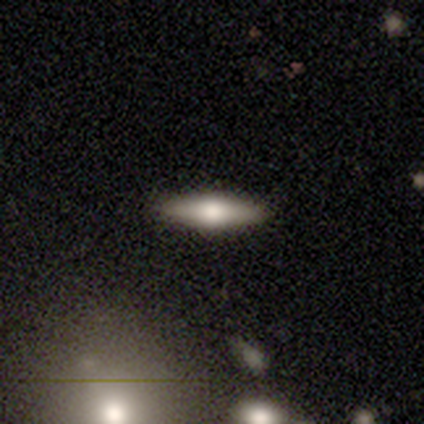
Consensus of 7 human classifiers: smooth_or_featured: smooth (p=0.71) [alt: featured or disk p=0.29]
how_rounded: cigar-shaped (p=0.60) [alt: in between p=0.40]
merging: none (p=1.00)